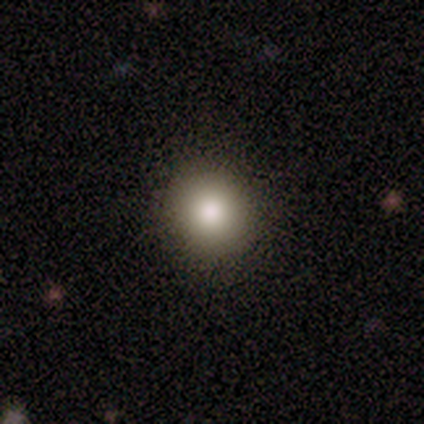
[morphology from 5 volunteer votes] This appears to be a smooth galaxy with no disk features (100%) that is round (80%). Merging: none (100%).